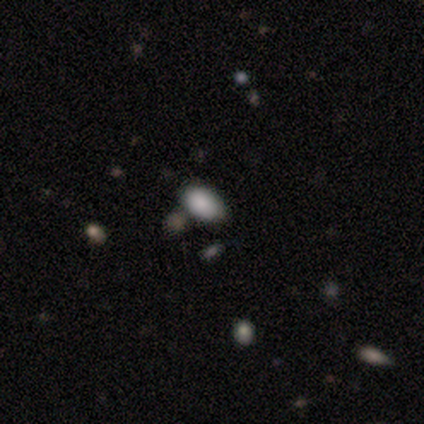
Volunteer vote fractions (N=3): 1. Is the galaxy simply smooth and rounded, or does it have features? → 67% smooth, 33% featured or disk, 0% star or artifact.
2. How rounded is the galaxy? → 100% in between, 0% round, 0% cigar-shaped.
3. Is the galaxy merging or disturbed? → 67% none, 33% minor disturbance, 0% major disturbance, 0% merger.